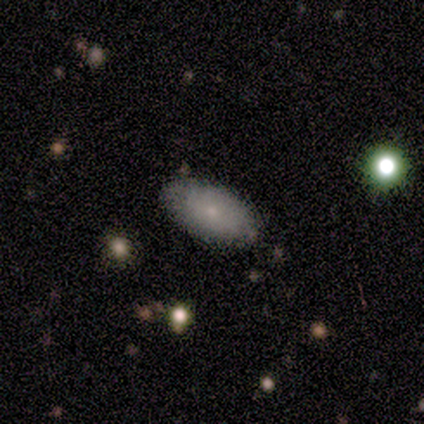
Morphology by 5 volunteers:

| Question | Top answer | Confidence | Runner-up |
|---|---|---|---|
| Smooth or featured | smooth | 40% | tied: featured or disk (40%) |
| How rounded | in between | 100% | — |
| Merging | none | 100% | — |